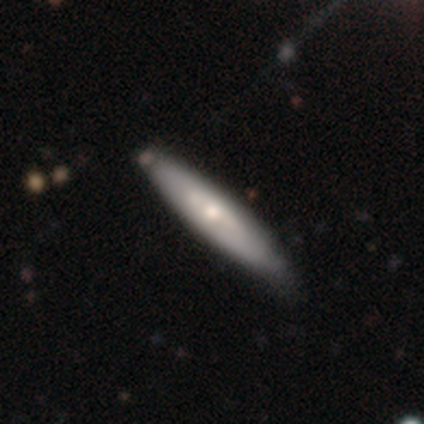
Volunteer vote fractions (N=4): smooth-or-featured: smooth: 50% (tied) | featured or disk: 50% (tied) | star or artifact: 0%
  how-rounded: in between: 50% (tied) | cigar-shaped: 50% (tied) | round: 0%
  merging: none: 75% | minor disturbance: 25% | major disturbance: 0% | merger: 0%